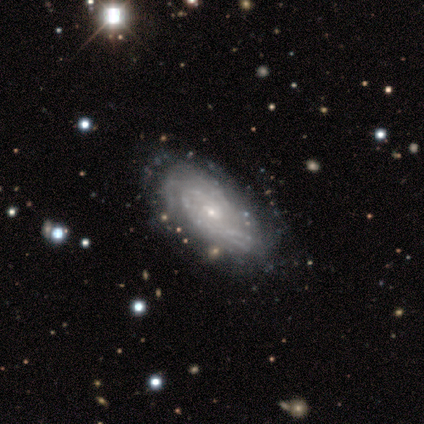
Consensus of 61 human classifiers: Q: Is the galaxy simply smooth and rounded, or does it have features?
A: featured or disk — 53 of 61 (87%).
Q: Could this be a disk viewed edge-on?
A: no — 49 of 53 (92%).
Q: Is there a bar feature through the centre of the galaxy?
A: no — 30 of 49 (61%).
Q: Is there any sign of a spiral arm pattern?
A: yes — 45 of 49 (92%).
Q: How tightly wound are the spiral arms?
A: tight — 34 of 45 (76%).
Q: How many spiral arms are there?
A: can't tell — 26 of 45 (58%).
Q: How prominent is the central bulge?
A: small — 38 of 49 (78%).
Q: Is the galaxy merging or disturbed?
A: none — 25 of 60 (42%).